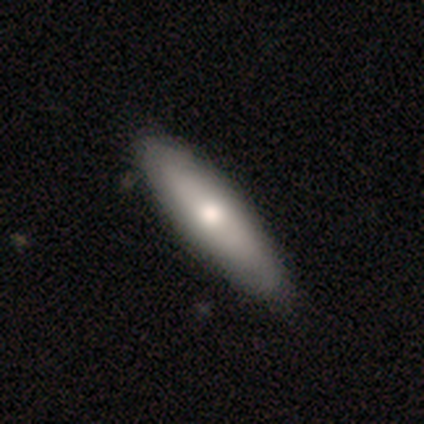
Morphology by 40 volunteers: smooth-or-featured: smooth: 65% | featured or disk: 32% | star or artifact: 2%
  how-rounded: cigar-shaped: 62% | in between: 38% | round: 0%
  merging: none: 59% | merger: 5% | minor disturbance: 3% | major disturbance: 0%